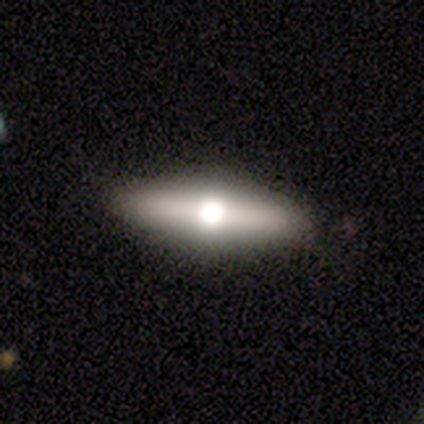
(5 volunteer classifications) Q: Smooth or featured?
A: featured or disk (60%); runner-up: smooth (40%)
Q: Edge-on disk?
A: yes (67%); runner-up: no (33%)
Q: Edge-on bulge?
A: rounded (100%)
Q: Merging?
A: none (80%); runner-up: minor disturbance (20%)